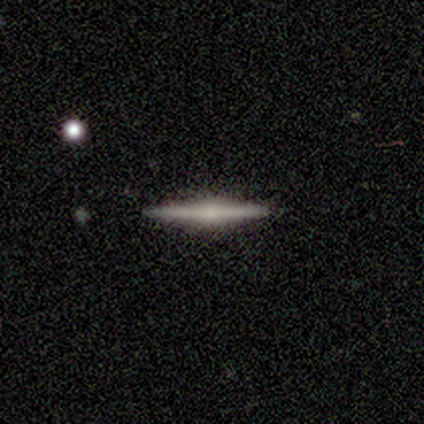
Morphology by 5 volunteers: smooth-or-featured: featured or disk: 80% | smooth: 20% | star or artifact: 0%
  disk-edge-on: yes: 100% | no: 0%
    edge-on-bulge: none: 50% | boxy: 25% | rounded: 25%
  merging: none: 60% | minor disturbance: 40% | major disturbance: 0% | merger: 0%